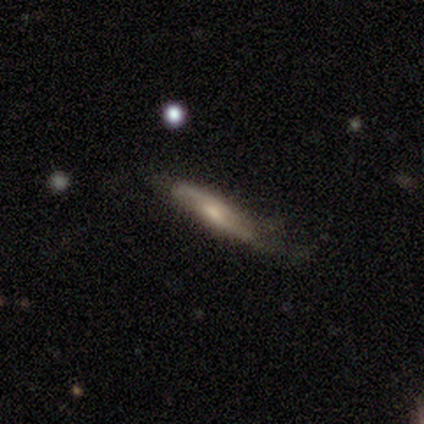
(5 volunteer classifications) Q: Smooth or featured?
A: smooth (40%); tied with: featured or disk (40%)
Q: How rounded?
A: cigar-shaped (100%)
Q: Merging?
A: none (50%); tied with: minor disturbance (50%)